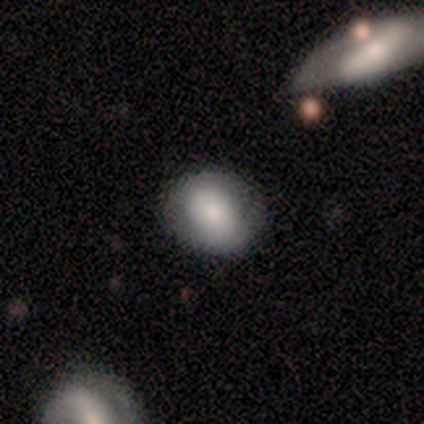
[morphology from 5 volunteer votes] smooth 60%, featured or disk 40%, star or artifact 0%. Down the decision tree: how rounded — round (67%); merging — none (100%).